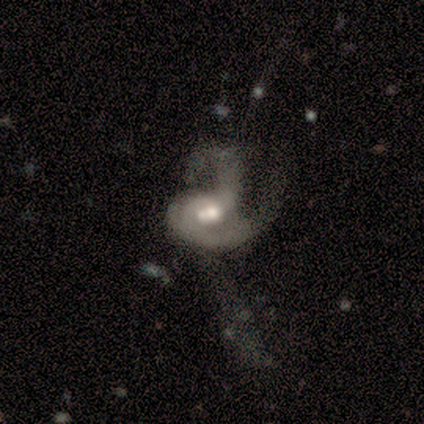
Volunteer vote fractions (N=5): This is clearly a featured or disk galaxy (80%). It is clearly not viewed edge-on (100%). Bar: possibly weak (50%, tied with no). Spiral arm pattern: clearly yes (100%). Spiral arm count: possibly 2 (50%). Spiral winding: possibly medium (50%, tied with loose). Central bulge: possibly moderate (50%). Merging: likely major disturbance (60%).